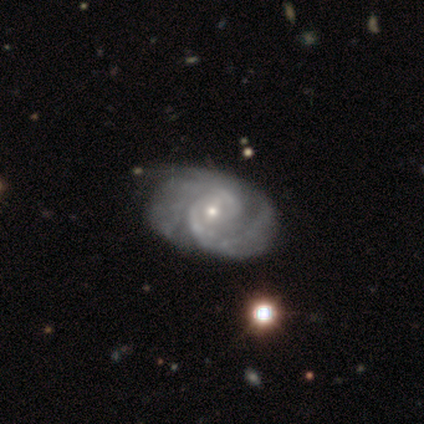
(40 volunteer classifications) Smooth or featured?
  - featured or disk: 90% *
  - smooth: 8%
  - star or artifact: 2%
Edge-on disk?
  - no: 100% *
  - yes: 0%
Bar?
  - weak: 50% *
  - no: 44%
  - strong: 6%
Spiral arms?
  - yes: 100% *
  - no: 0%
Spiral winding?
  - tight: 50% *
  - medium: 44%
  - loose: 6%
Spiral arm count?
  - 2: 75% *
  - can't tell: 17%
  - 1: 6%
  - 4: 3%
  - 3: 0%
  - more than 4: 0%
Bulge size?
  - small: 64% *
  - moderate: 31%
  - large: 3%
  - none: 3%
  - dominant: 0%
Merging?
  - none: 33% *
  - minor disturbance: 28%
  - major disturbance: 5%
  - merger: 3%